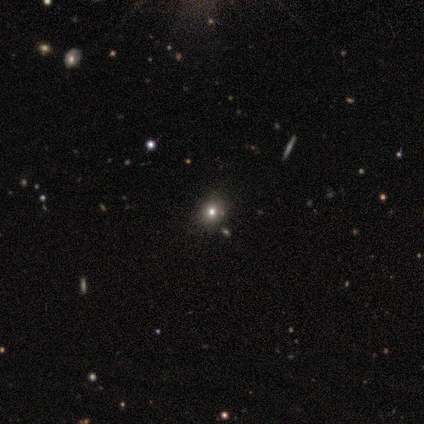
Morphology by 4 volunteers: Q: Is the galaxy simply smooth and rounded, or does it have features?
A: smooth — 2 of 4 (50%).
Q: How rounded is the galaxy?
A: round — 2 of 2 (100%).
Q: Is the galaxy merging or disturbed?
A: none — 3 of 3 (100%).